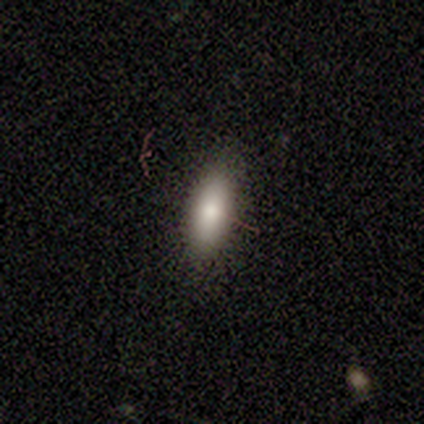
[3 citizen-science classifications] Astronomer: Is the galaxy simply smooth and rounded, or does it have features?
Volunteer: smooth — 100%.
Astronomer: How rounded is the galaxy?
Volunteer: in between — 67%.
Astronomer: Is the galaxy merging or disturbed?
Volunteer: none — 100%.